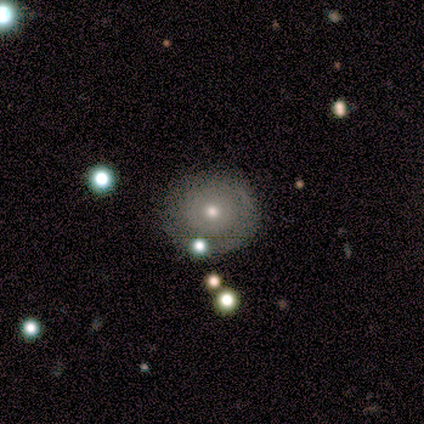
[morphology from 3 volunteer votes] Volunteers were most divided on "merging": none: 67%, minor disturbance: 33%, major disturbance: 0%, merger: 0%. More confident: smooth or featured — smooth (100%); how rounded — round (100%).